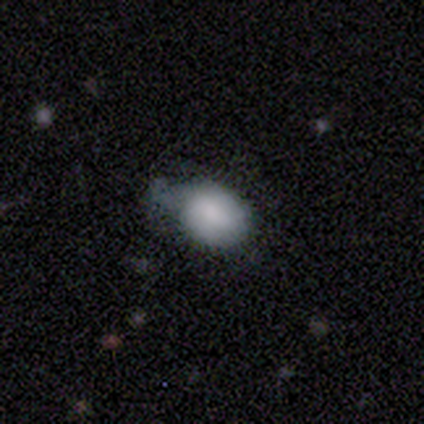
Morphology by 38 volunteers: Overall: smooth (84%). How rounded: in between (69%; round 31%). Merging: minor disturbance (69%).